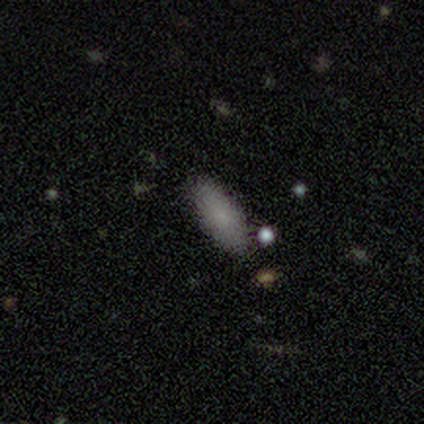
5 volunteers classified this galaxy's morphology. Overall: smooth (60%; featured or disk 20%). How rounded: cigar-shaped (67%; in between 33%). Merging: none (50%; minor disturbance 25%).